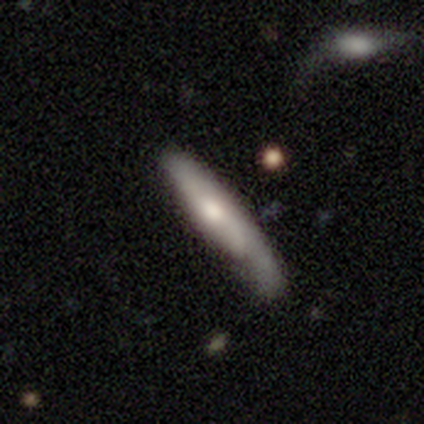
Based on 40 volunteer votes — smooth_or_featured: smooth (p=0.53) [alt: featured or disk p=0.45]
how_rounded: cigar-shaped (p=0.86) [alt: in between p=0.14]
merging: none (p=0.54) [alt: minor disturbance p=0.23]